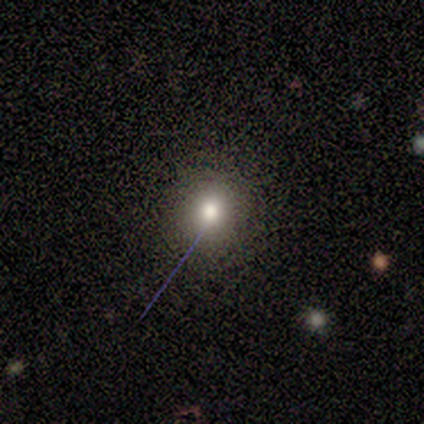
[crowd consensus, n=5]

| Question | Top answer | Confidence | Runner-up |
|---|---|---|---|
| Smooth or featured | star or artifact | 60% | smooth (40%) |